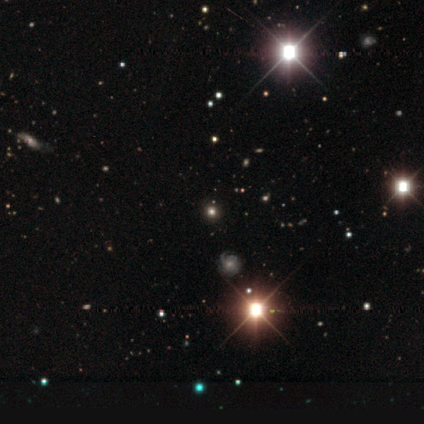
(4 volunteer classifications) star or artifact 50%, smooth 25%, featured or disk 25%.